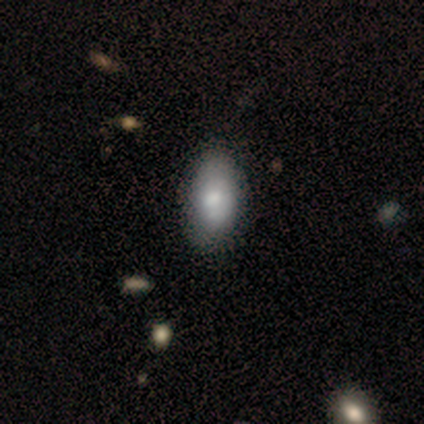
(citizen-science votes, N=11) Morphology: type=smooth (82%); roundness=in between (100%); merging=none (80%).